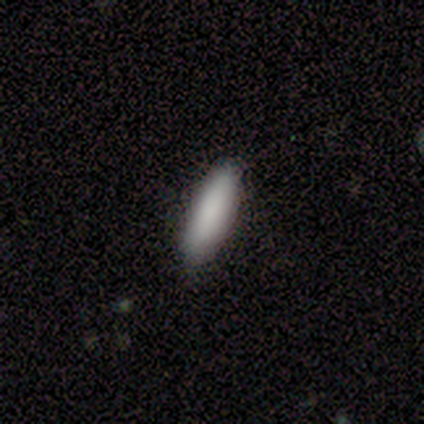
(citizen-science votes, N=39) Smooth or featured? 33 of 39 (85%) said smooth. How rounded? 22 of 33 (67%) said cigar-shaped. Merging? 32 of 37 (86%) said none.